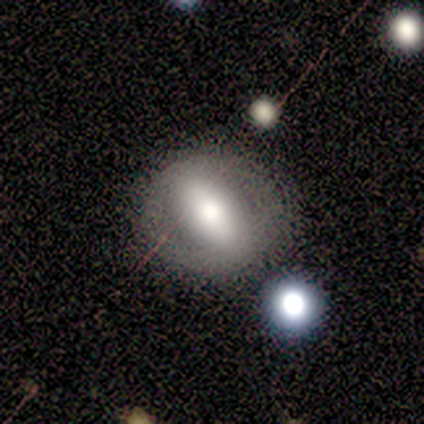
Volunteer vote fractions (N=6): A featured or disk galaxy (67%) with a strong bar (100%), no spiral arms (100%) and a large central bulge (50%).

Vote fractions:
- Smooth or featured? featured or disk: 67% / smooth: 17% / star or artifact: 17%
- Edge-on disk? no: 100% / yes: 0%
- Bar? strong: 100% / weak: 0% / no: 0%
- Spiral arms? no: 100% / yes: 0%
- Bulge size? large: 50% / moderate: 25% / small: 25% / dominant: 0% / none: 0%
- Merging? none: 100% / minor disturbance: 0% / major disturbance: 0% / merger: 0%